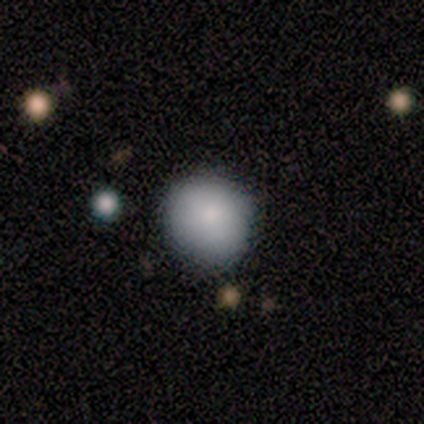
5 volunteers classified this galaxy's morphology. Q: Smooth or featured?
A: smooth (100%)
Q: How rounded?
A: round (60%); runner-up: in between (40%)
Q: Merging?
A: none (100%)